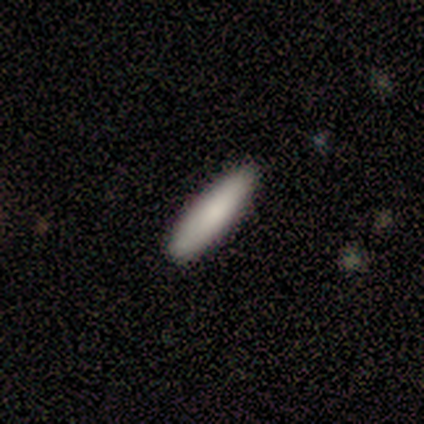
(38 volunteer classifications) Smooth or featured: smooth — 84% (featured or disk — 11%)
How rounded: cigar-shaped — 72% (in between — 25%)
Merging: none — 94% (minor disturbance — 3%)